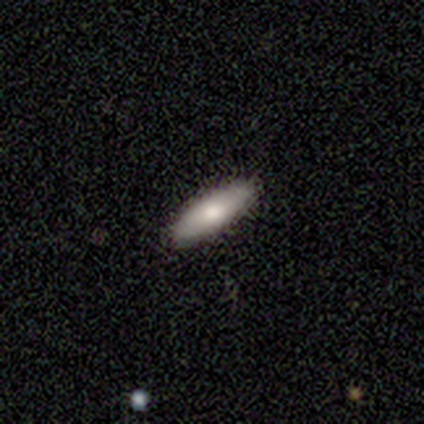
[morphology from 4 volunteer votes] Q: Smooth or featured?
A: smooth (100%)
Q: How rounded?
A: cigar-shaped (50%); runner-up: round (25%)
Q: Merging?
A: none (100%)